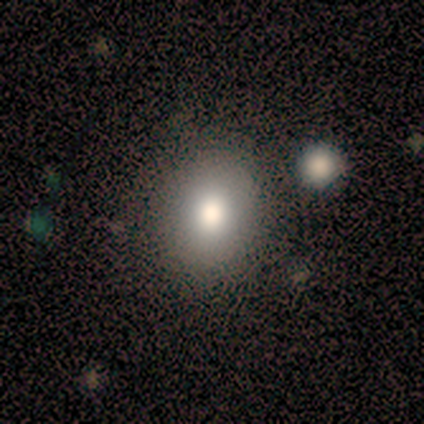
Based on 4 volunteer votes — Smooth or featured? smooth (75%)
How rounded? round (67%)
Merging? none (75%)